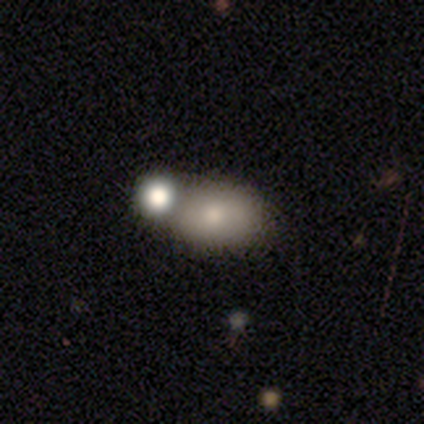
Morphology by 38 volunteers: type=smooth (74%); roundness=in between (89%); merging=none (61%).